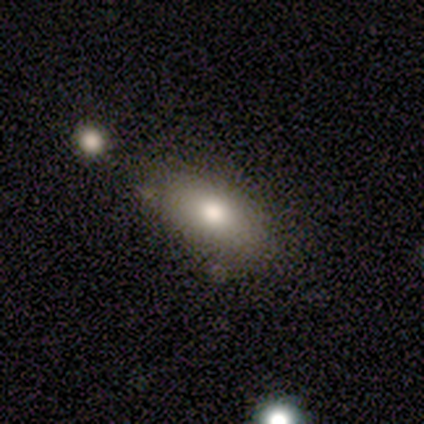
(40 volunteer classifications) smooth-or-featured: smooth: 78% | featured or disk: 15% | star or artifact: 8%
  how-rounded: in between: 87% | cigar-shaped: 10% | round: 3%
  merging: none: 73% | merger: 11% | minor disturbance: 8% | major disturbance: 8%